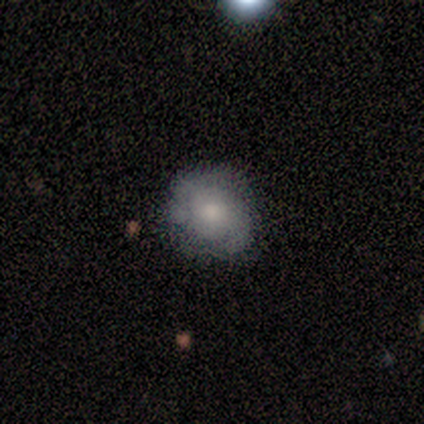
smooth-or-featured: smooth: 60% | featured or disk: 20% | star or artifact: 20%
  how-rounded: round: 100% | in between: 0% | cigar-shaped: 0%
  merging: none: 75% | minor disturbance: 25% | major disturbance: 0% | merger: 0%